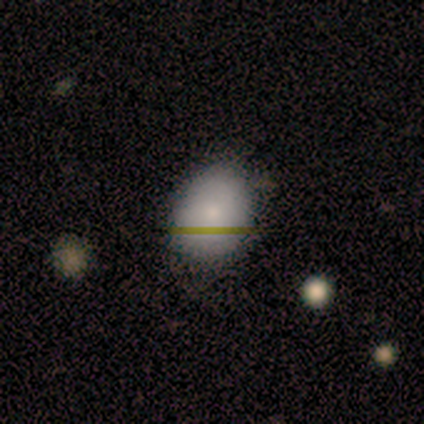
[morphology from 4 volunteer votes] A smooth galaxy with no disk features (100%) that is in between round and cigar-shaped (100%).

Vote fractions:
- Smooth or featured? smooth: 100% / featured or disk: 0% / star or artifact: 0%
- How rounded? in between: 100% / round: 0% / cigar-shaped: 0%
- Merging? none: 100% / minor disturbance: 0% / major disturbance: 0% / merger: 0%